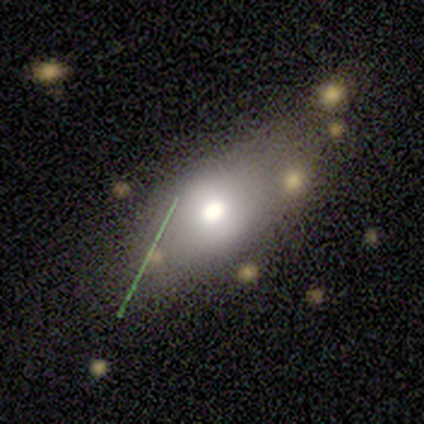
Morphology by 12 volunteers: Q: Smooth or featured?
A: smooth (67%); runner-up: featured or disk (33%)
Q: How rounded?
A: in between (62%); runner-up: cigar-shaped (38%)
Q: Merging?
A: none (92%); runner-up: major disturbance (8%)